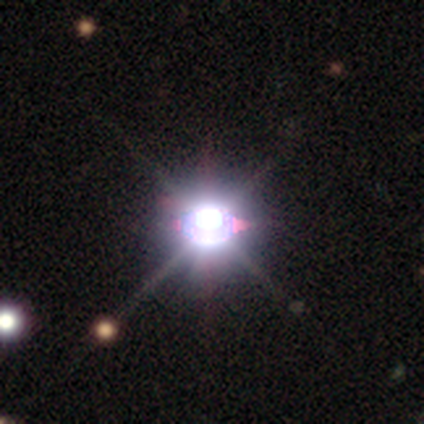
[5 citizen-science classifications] Overall: star or artifact (100%).